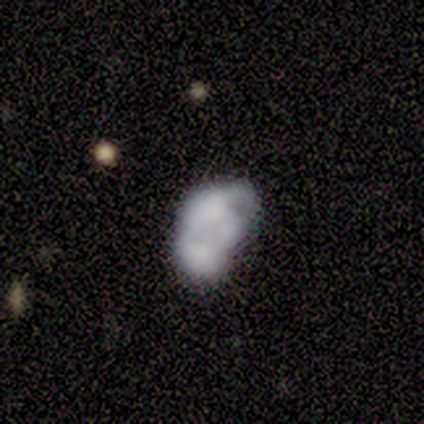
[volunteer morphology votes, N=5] Smooth or featured: featured or disk — 60% (smooth — 20%)
Edge-on disk: no — 100%
Bar: no — 67% (weak — 33%)
Spiral arms: no — 100%
Bulge size: none — 67% (small — 33%)
Merging: none — 75% (minor disturbance — 25%)